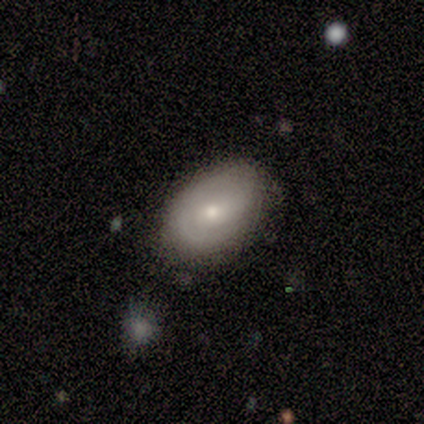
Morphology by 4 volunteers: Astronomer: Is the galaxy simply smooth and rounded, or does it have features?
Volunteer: smooth — 50%, tied with featured or disk at 50%.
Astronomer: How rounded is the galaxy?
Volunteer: in between — 100%.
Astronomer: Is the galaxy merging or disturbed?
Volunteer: none — 100%.